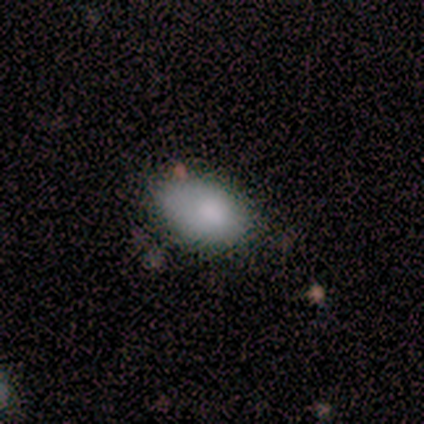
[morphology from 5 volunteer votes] Overall: smooth (80%). How rounded: in between (75%). Merging: none (80%).